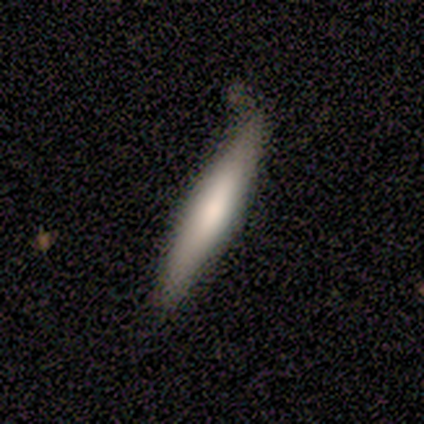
Smooth or featured?
  - smooth: 60% *
  - featured or disk: 40%
  - star or artifact: 0%
How rounded?
  - cigar-shaped: 100% *
  - round: 0%
  - in between: 0%
Merging?
  - none: 80% *
  - minor disturbance: 20%
  - major disturbance: 0%
  - merger: 0%